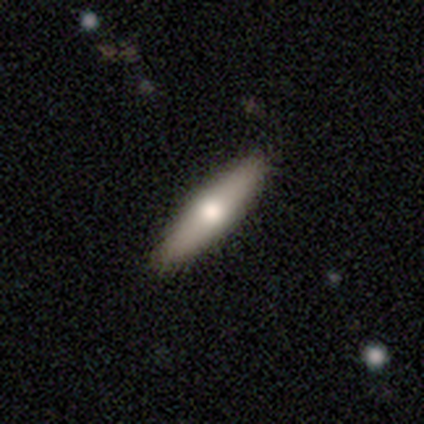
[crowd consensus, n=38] Volunteers were most divided on "smooth or featured" (2-way tie): smooth: 47%, featured or disk: 47%, star or artifact: 5%. More confident: merging — none (92%); how rounded — cigar-shaped (67%).